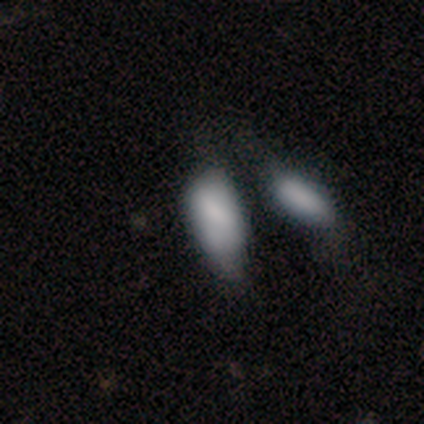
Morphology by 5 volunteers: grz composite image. It shows a smooth galaxy with no disk features (100%) that is in between round and cigar-shaped (80%). Merging: major disturbance (80%).